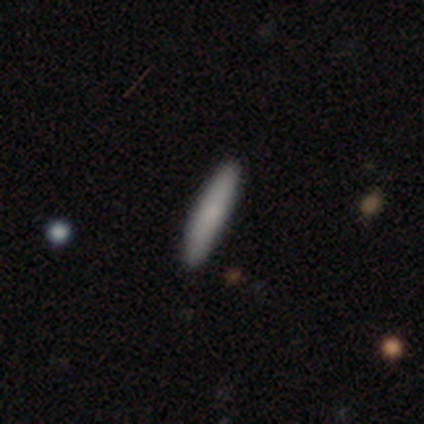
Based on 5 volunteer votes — Smooth or featured: smooth — 100%
How rounded: cigar-shaped — 100%
Merging: none — 100%